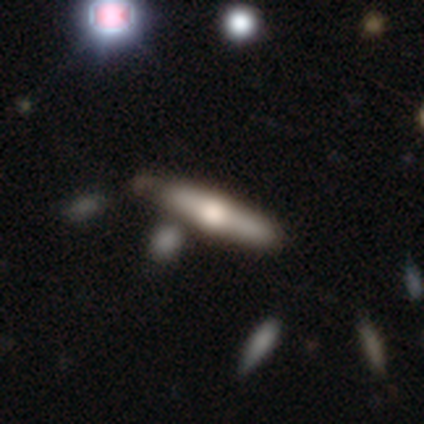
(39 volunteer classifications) smooth-or-featured: featured or disk: 62% | smooth: 31% | star or artifact: 8%
  disk-edge-on: yes: 100% | no: 0%
    edge-on-bulge: rounded: 88% | none: 8% | boxy: 4%
  merging: none: 72% | minor disturbance: 11% | merger: 11% | major disturbance: 6%